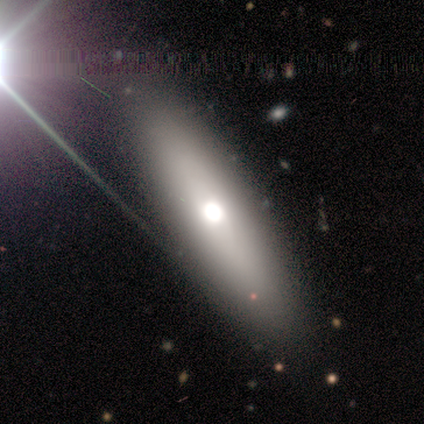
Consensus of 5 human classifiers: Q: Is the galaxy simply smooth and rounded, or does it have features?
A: smooth — 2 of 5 (40%, tied with featured or disk).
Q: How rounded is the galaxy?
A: cigar-shaped — 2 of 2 (100%).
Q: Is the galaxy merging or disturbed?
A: none — 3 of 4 (75%).